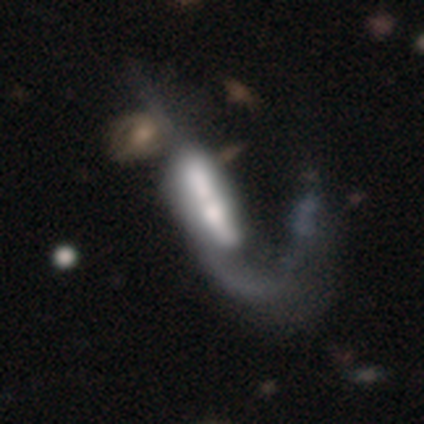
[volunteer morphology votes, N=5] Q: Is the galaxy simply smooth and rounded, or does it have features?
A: smooth — 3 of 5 (60%).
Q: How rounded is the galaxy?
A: cigar-shaped — 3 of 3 (100%).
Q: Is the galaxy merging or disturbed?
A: merger — 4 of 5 (80%).